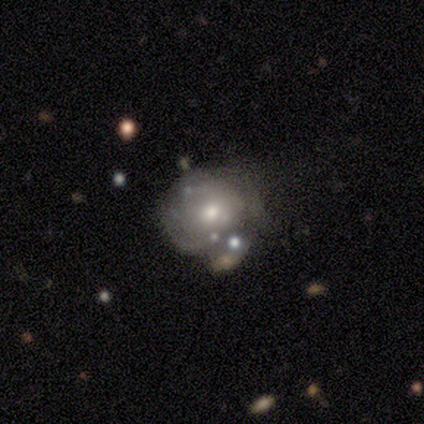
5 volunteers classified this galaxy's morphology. smooth_or_featured: featured or disk (p=0.60) [alt: smooth p=0.40]
disk_edge_on: no (p=0.67) [alt: yes p=0.33]
bar: weak (p=0.50) [tied with: no p=0.50]
has_spiral_arms: no (p=1.00)
bulge_size: large (p=0.50) [tied with: moderate p=0.50]
merging: merger (p=0.80) [alt: major disturbance p=0.20]